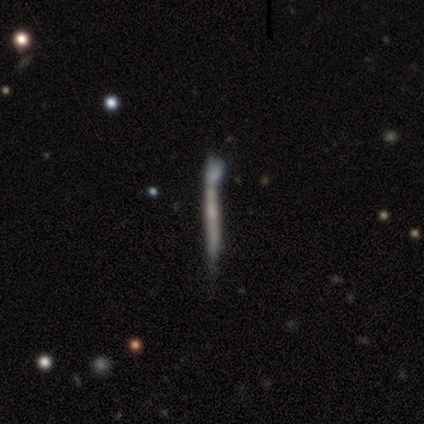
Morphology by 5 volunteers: smooth_or_featured: smooth (p=0.40) [tied with: featured or disk p=0.40]
how_rounded: cigar-shaped (p=1.00)
merging: none (p=0.50) [alt: minor disturbance p=0.25]